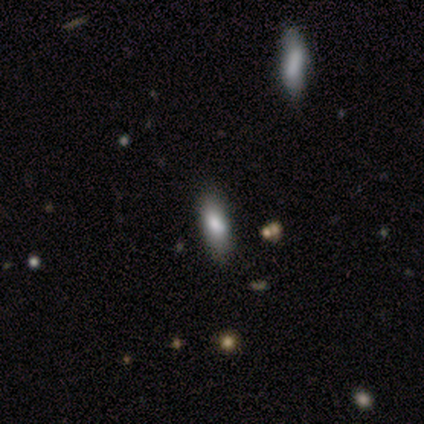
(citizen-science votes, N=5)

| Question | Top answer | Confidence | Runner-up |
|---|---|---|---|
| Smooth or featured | smooth | 100% | — |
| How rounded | in between | 100% | — |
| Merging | none | 100% | — |